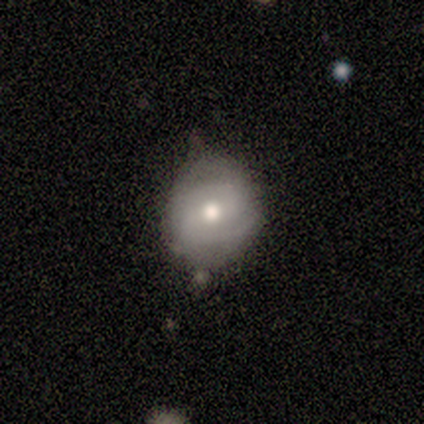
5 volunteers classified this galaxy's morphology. featured or disk 80%, smooth 20%, star or artifact 0%. Down the decision tree: edge-on disk — no (100%); bar — no (50%); spiral arms — yes (50%, tied with no); spiral arm count — 2 (100%); spiral winding — tight (50%, tied with medium); bulge size — moderate (100%); merging — none (80%).